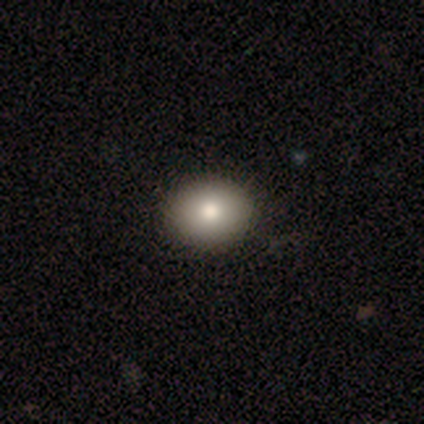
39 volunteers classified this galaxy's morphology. Smooth or featured? 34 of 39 (87%) said smooth. How rounded? 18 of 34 (53%) said round. Merging? 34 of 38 (89%) said none.